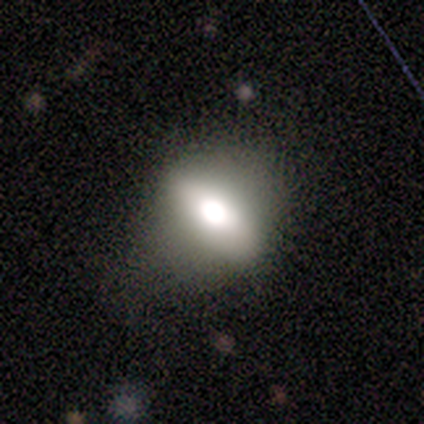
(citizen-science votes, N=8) smooth_or_featured: smooth (p=0.88) [alt: featured or disk p=0.12]
how_rounded: in between (p=1.00)
merging: none (p=0.50) [alt: minor disturbance p=0.38]